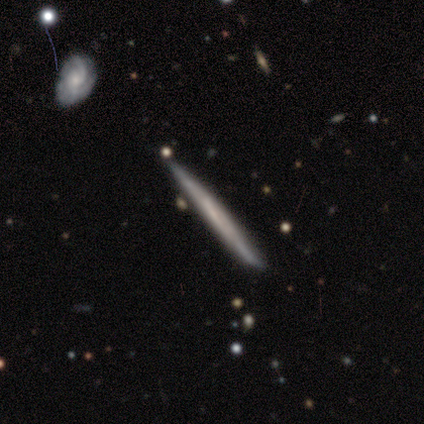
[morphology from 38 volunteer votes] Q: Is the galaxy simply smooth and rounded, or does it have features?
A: featured or disk — 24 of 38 (63%).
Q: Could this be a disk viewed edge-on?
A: yes — 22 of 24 (92%).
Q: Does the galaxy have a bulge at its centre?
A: none — 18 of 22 (82%).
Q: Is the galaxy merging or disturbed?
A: none — 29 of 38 (76%).